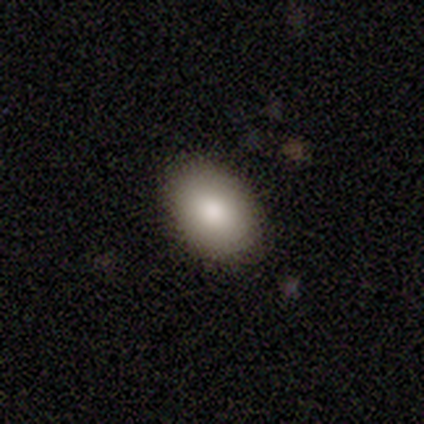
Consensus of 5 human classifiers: smooth_or_featured: smooth (p=0.60) [alt: featured or disk p=0.20]
how_rounded: in between (p=1.00)
merging: none (p=1.00)